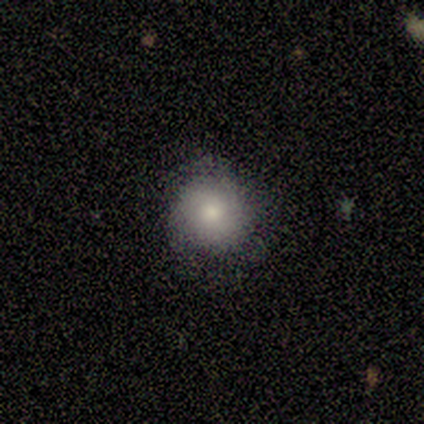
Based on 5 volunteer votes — Smooth or featured?
  - smooth: 80% *
  - featured or disk: 20%
  - star or artifact: 0%
How rounded?
  - round: 100% *
  - in between: 0%
  - cigar-shaped: 0%
Merging?
  - none: 100% *
  - minor disturbance: 0%
  - major disturbance: 0%
  - merger: 0%